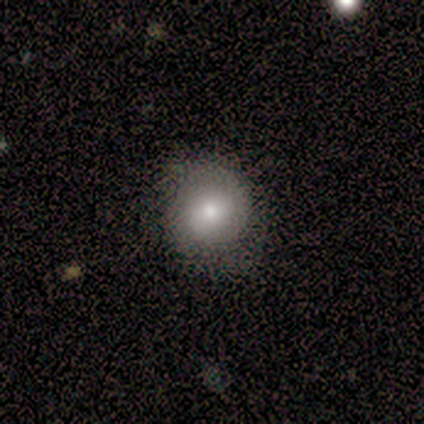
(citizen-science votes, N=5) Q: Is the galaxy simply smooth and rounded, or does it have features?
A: smooth — 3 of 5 (60%).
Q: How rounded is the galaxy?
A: round — 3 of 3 (100%).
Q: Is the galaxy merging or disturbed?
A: minor disturbance — 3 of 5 (60%).